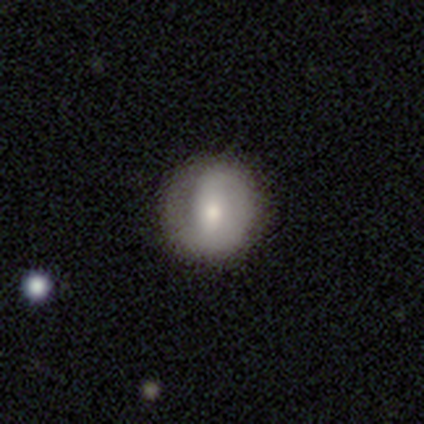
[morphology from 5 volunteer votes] Smooth or featured?
  - featured or disk: 60% *
  - smooth: 40%
  - star or artifact: 0%
Edge-on disk?
  - no: 100% *
  - yes: 0%
Bar?
  - weak: 100% *
  - strong: 0%
  - no: 0%
Spiral arms?
  - yes: 67% *
  - no: 33%
Spiral winding?
  - tight: 50% * (tied)
  - medium: 50% * (tied)
  - loose: 0%
Spiral arm count?
  - 1: 50% * (tied)
  - 2: 50% * (tied)
  - 3: 0%
  - 4: 0%
  - more than 4: 0%
  - can't tell: 0%
Bulge size?
  - large: 33% * (tied)
  - moderate: 33% * (tied)
  - small: 33% * (tied)
  - dominant: 0%
  - none: 0%
Merging?
  - none: 100% *
  - minor disturbance: 0%
  - major disturbance: 0%
  - merger: 0%